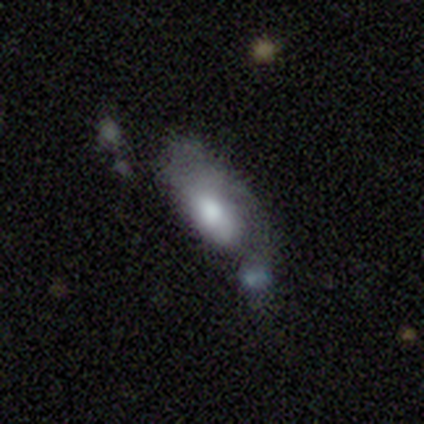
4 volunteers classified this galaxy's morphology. Overall: featured or disk (50%; smooth 25%). Edge-on disk: no (100%). Bar: no (100%). Spiral arms: yes (100%). Spiral arm count: 1 (100%). Spiral winding: medium (50%, tied with loose). Bulge size: large (50%, tied with moderate). Merging: merger (67%; major disturbance 33%).